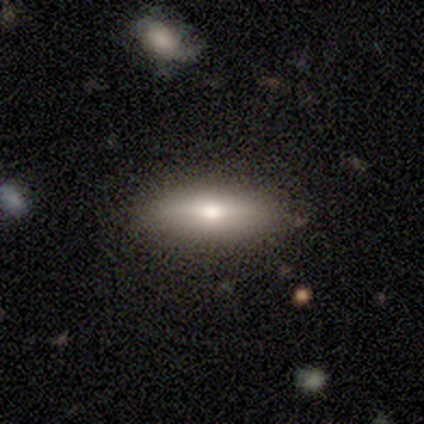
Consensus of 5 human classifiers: smooth_or_featured: smooth (p=0.80) [alt: featured or disk p=0.20]
how_rounded: in between (p=0.75) [alt: cigar-shaped p=0.25]
merging: none (p=0.80) [alt: minor disturbance p=0.20]